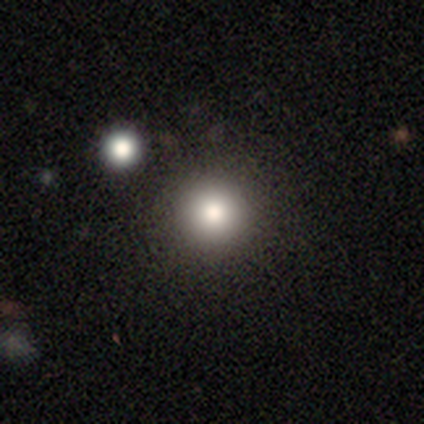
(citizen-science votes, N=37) Overall: smooth (76%). How rounded: round (96%). Merging: none (72%).